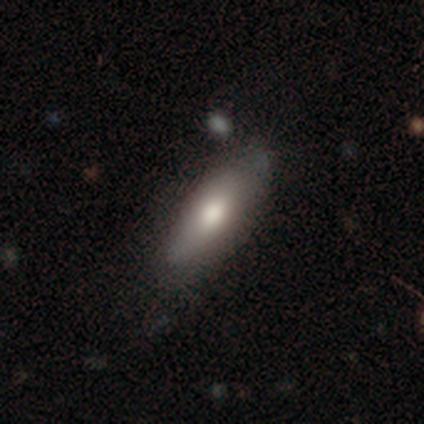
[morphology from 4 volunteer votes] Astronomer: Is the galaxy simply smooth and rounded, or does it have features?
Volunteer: smooth — 75%.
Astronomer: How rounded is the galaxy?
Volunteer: in between — 100%.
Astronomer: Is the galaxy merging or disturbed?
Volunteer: none — 100%.